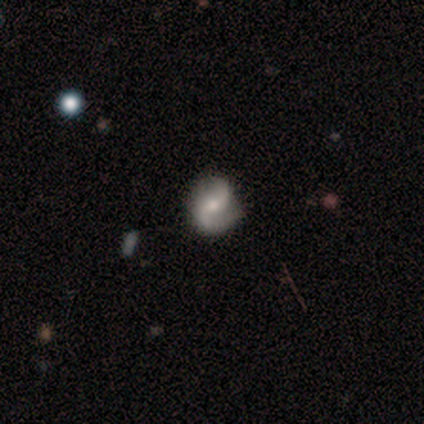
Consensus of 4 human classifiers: Overall: featured or disk (75%). Edge-on disk: no (100%). Bar: no (100%). Spiral arms: yes (100%). Spiral arm count: 2 (100%). Spiral winding: tight (67%; medium 33%). Bulge size: moderate (67%; small 33%). Merging: none (100%).